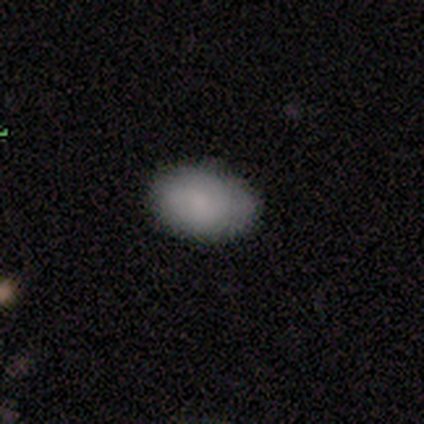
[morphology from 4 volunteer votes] smooth_or_featured: smooth (p=1.00)
how_rounded: in between (p=1.00)
merging: none (p=1.00)